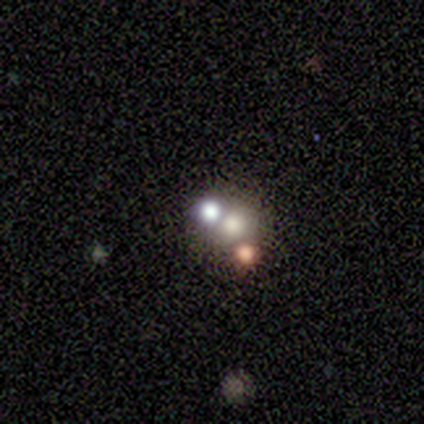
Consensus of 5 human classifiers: Q: Smooth or featured?
A: smooth (40%); tied with: star or artifact (40%)
Q: How rounded?
A: round (100%)
Q: Merging?
A: merger (67%); runner-up: none (33%)